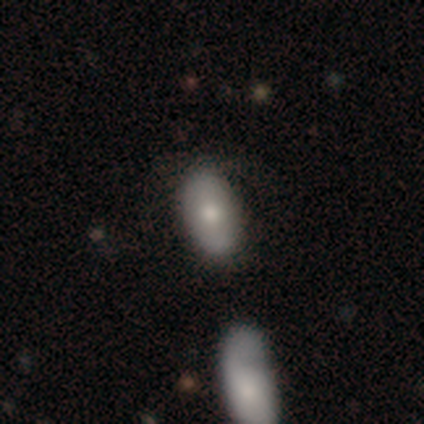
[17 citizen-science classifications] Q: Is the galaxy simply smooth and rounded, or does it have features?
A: smooth — 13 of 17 (76%).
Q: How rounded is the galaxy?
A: in between — 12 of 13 (92%).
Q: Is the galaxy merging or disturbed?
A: none — 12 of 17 (71%).